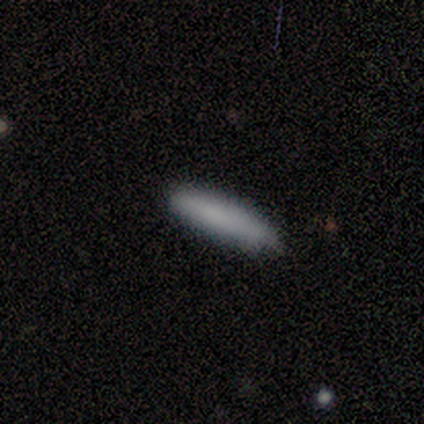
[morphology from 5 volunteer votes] This is clearly a smooth galaxy (100%). How rounded: clearly cigar-shaped (80%). Merging: clearly none (100%).